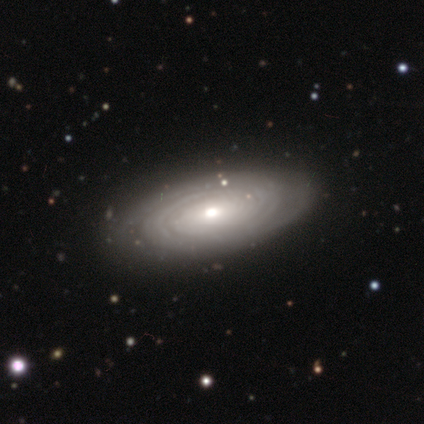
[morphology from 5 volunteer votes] smooth_or_featured: featured or disk (p=1.00)
disk_edge_on: no (p=1.00)
bar: no (p=0.80) [alt: strong p=0.20]
has_spiral_arms: yes (p=1.00)
spiral_winding: tight (p=0.60) [alt: medium p=0.20]
spiral_arm_count: can't tell (p=0.40) [alt: 2 p=0.20]
bulge_size: moderate (p=0.60) [alt: small p=0.40]
merging: none (p=0.80) [alt: minor disturbance p=0.20]